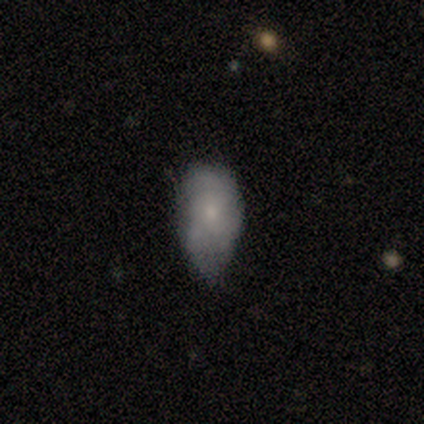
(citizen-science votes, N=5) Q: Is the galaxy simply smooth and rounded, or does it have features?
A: smooth — 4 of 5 (80%).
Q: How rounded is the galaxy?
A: in between — 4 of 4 (100%).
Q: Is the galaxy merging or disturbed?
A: minor disturbance — 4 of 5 (80%).